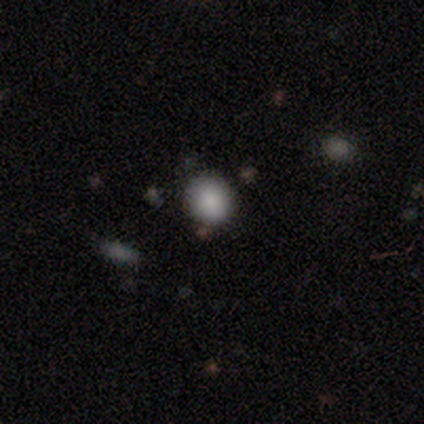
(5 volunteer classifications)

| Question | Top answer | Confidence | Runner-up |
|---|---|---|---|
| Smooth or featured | smooth | 80% | star or artifact (20%) |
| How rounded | round | 75% | in between (25%) |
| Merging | none | 100% | — |